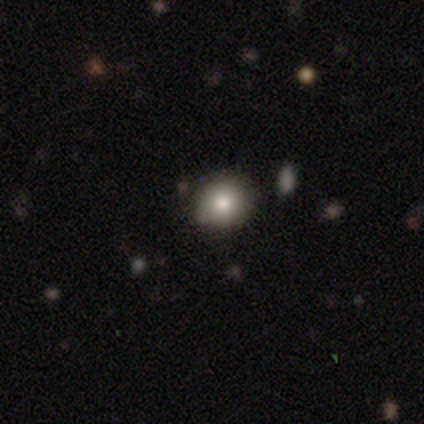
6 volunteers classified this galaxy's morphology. Smooth or featured?
  - smooth: 100% *
  - featured or disk: 0%
  - star or artifact: 0%
How rounded?
  - round: 100% *
  - in between: 0%
  - cigar-shaped: 0%
Merging?
  - none: 83% *
  - minor disturbance: 17%
  - major disturbance: 0%
  - merger: 0%